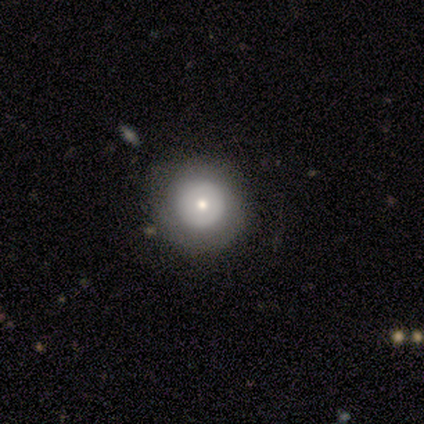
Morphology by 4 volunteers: Smooth or featured? 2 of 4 (50%) said smooth. How rounded? 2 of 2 (100%) said round. Merging? 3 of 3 (100%) said none.